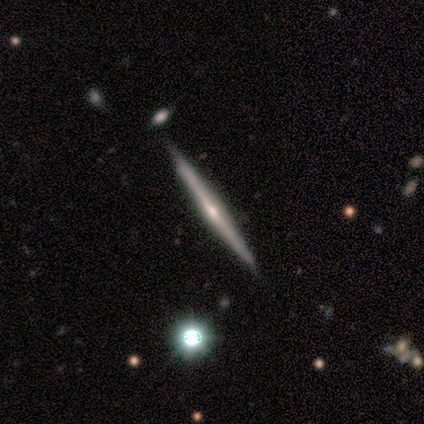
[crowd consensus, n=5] Smooth or featured? 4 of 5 (80%) said featured or disk. Edge-on disk? 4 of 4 (100%) said yes. Edge-on bulge? 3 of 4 (75%) said rounded. Merging? 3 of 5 (60%) said none.